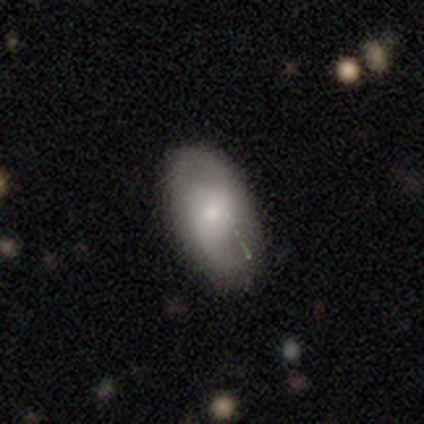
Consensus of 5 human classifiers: smooth-or-featured: smooth: 60% | featured or disk: 40% | star or artifact: 0%
  how-rounded: in between: 100% | round: 0% | cigar-shaped: 0%
  merging: none: 60% | minor disturbance: 40% | major disturbance: 0% | merger: 0%